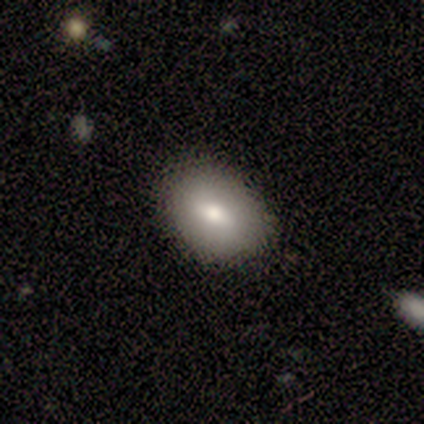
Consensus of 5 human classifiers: Smooth or featured? 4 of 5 (80%) said smooth. How rounded? 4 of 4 (100%) said in between. Merging? 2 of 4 (50%, tied with minor disturbance) said none.